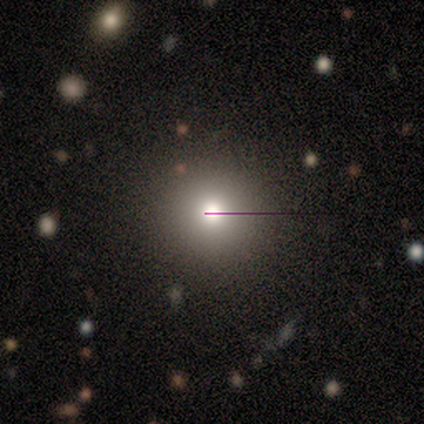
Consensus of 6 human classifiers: smooth 83%, featured or disk 17%, star or artifact 0%. Down the decision tree: how rounded — round (100%); merging — none (100%).